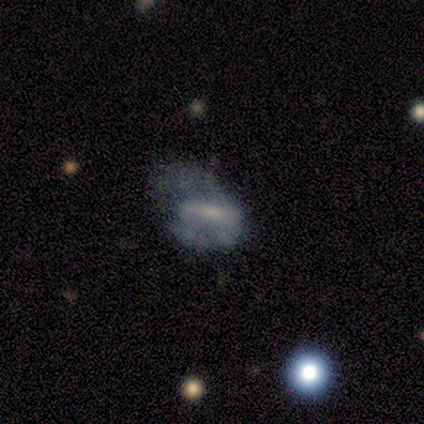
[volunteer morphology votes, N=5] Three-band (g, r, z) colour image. It shows a smooth galaxy with no disk features (60%) that is in between round and cigar-shaped (100%). Merging: none (60%).